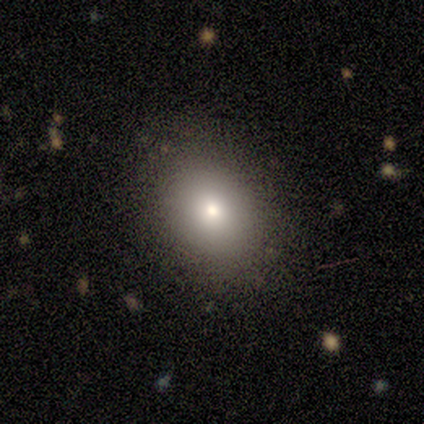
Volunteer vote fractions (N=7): Morphology: type=smooth (86%); roundness=in between (83%); merging=none (71%).